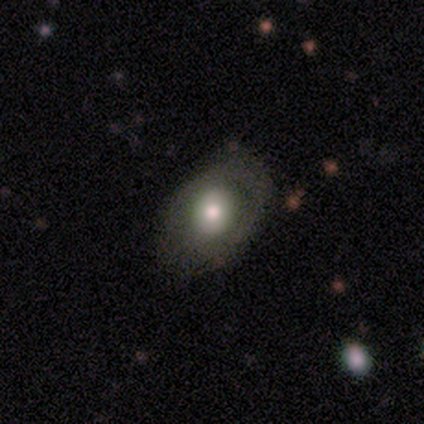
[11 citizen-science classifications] A smooth galaxy with no disk features (64%) that is in between round and cigar-shaped (57%).

Vote fractions:
- Smooth or featured? smooth: 64% / featured or disk: 36% / star or artifact: 0%
- How rounded? in between: 57% / round: 43% / cigar-shaped: 0%
- Merging? none: 64% / minor disturbance: 27% / major disturbance: 9% / merger: 0%